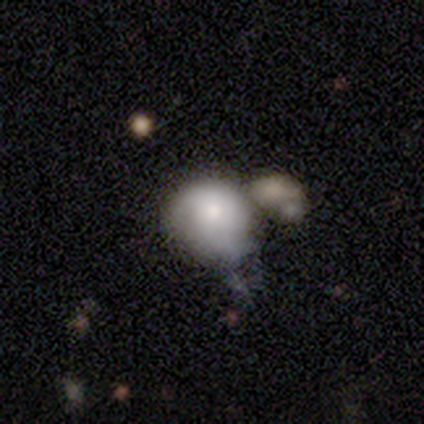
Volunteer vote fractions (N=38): smooth 63%, featured or disk 29%, star or artifact 8%. Down the decision tree: how rounded — round (62%); merging — merger (51%).